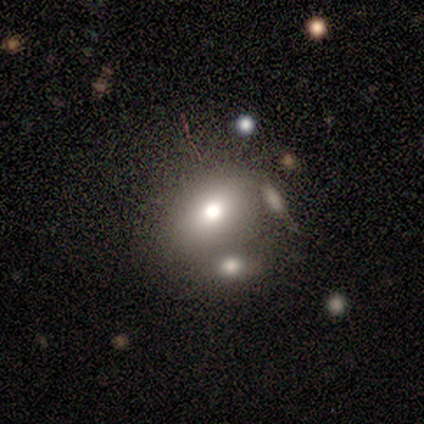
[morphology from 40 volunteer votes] Smooth or featured? smooth (62%)
How rounded? in between (76%)
Merging? none (45%)